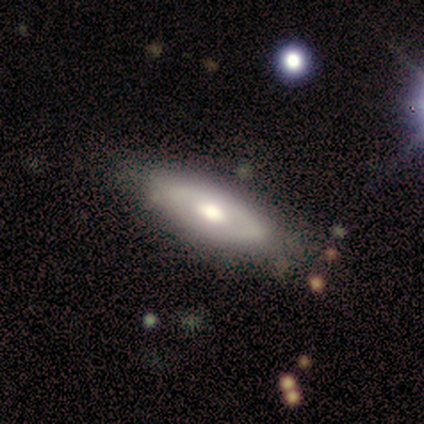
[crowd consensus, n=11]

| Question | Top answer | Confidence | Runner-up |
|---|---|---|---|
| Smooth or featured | featured or disk | 55% | smooth (45%) |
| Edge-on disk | no | 67% | yes (33%) |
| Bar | no | 100% | — |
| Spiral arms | no | 100% | — |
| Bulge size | moderate | 50% | large (25%) |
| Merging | none | 82% | minor disturbance (18%) |